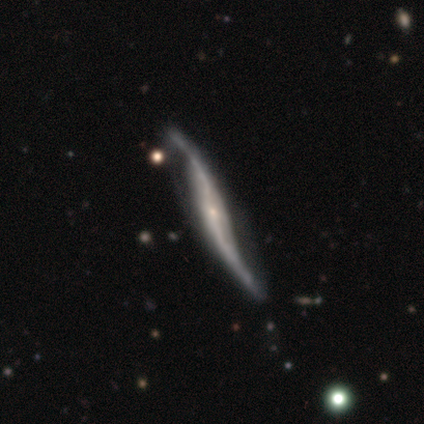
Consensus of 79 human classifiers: Morphology: type=featured or disk (92%); edge-on=yes (52%); edge-on bulge=rounded (50%); merging=none (32%).